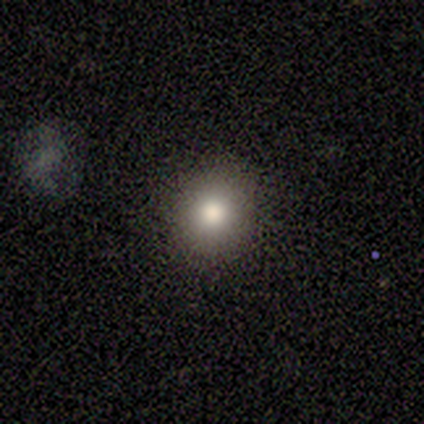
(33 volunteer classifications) Q: Smooth or featured?
A: smooth (61%); runner-up: featured or disk (21%)
Q: How rounded?
A: round (80%); runner-up: in between (20%)
Q: Merging?
A: none (96%); runner-up: minor disturbance (4%)